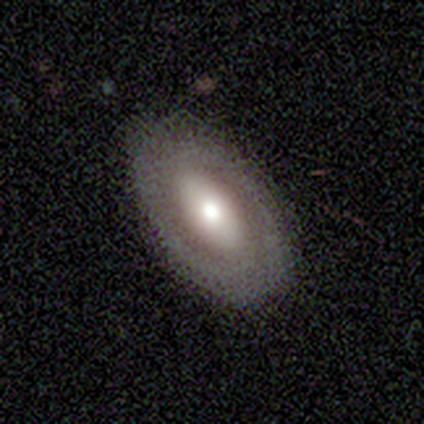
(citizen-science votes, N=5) smooth_or_featured: featured or disk (p=1.00)
disk_edge_on: no (p=1.00)
bar: no (p=0.80) [alt: weak p=0.20]
has_spiral_arms: no (p=0.80) [alt: yes p=0.20]
bulge_size: large (p=0.40) [tied with: small p=0.40]
merging: none (p=1.00)